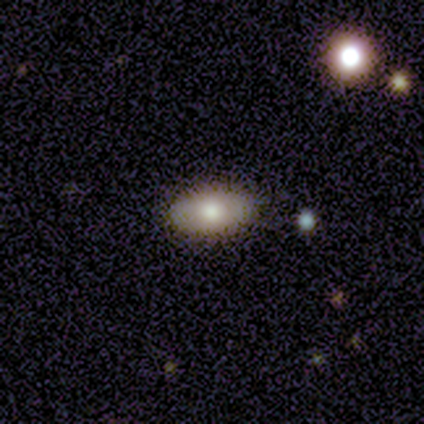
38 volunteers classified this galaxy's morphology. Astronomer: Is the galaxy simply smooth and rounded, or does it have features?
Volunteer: smooth — 74%.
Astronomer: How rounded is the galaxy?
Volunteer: in between — 93%.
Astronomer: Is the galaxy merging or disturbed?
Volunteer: none — 89%.